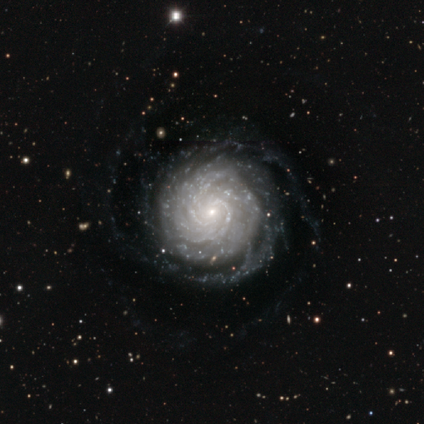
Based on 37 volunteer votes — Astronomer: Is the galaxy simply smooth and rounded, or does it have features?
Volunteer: featured or disk — 95%.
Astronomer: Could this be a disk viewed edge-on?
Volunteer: no — 100%.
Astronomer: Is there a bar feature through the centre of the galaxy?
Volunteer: no — 66%.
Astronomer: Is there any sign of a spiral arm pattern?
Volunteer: yes — 100%.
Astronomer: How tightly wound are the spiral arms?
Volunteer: tight — 74%.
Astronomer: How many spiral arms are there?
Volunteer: more than 4 — 49%.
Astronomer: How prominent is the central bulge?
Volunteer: small — 94%.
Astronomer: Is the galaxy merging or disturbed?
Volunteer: none — 72%.